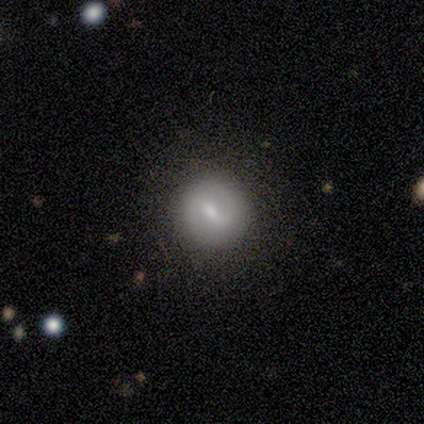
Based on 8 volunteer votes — A smooth galaxy with no disk features (50%, tied with featured or disk) that is round (100%). Merging: none (88%).